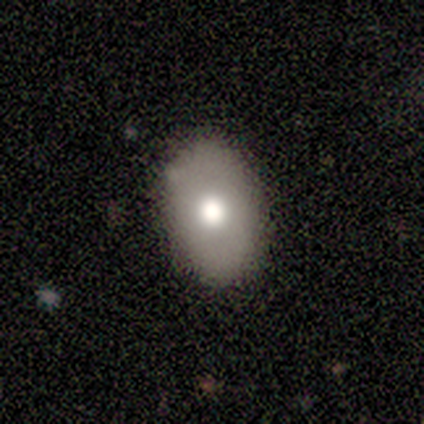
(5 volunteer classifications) Overall: smooth (60%; featured or disk 40%). How rounded: in between (100%). Merging: none (80%).